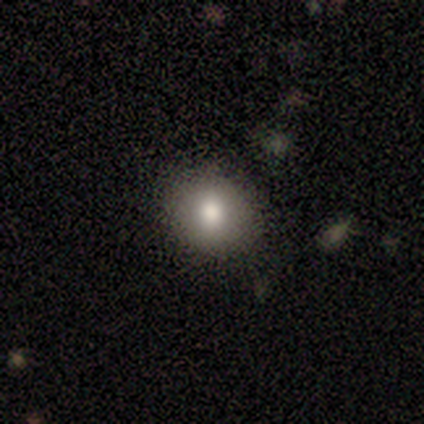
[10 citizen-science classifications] This is clearly a smooth galaxy (80%). How rounded: clearly round (88%). Merging: clearly none (80%).